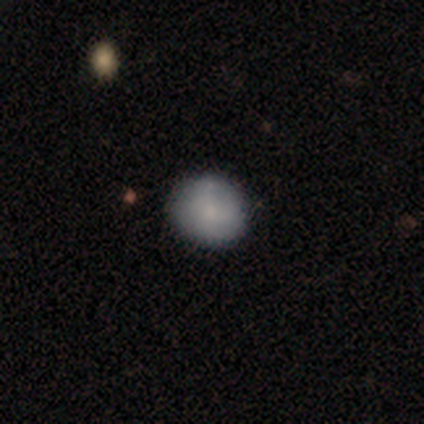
Morphology: type=smooth (80%); roundness=round (75%); merging=none (80%).